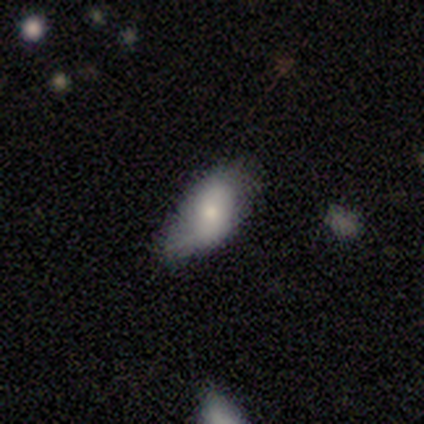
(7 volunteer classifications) Volunteers were most divided on "smooth or featured" (2-way tie): smooth: 43%, featured or disk: 43%, star or artifact: 14%. More confident: how rounded — in between (100%); merging — minor disturbance (67%).